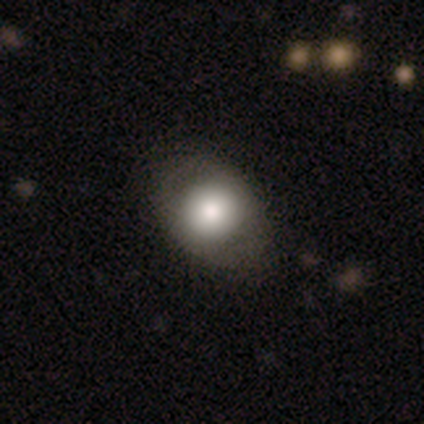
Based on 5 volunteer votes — Q: Smooth or featured?
A: smooth (60%); runner-up: featured or disk (40%)
Q: How rounded?
A: round (67%); runner-up: in between (33%)
Q: Merging?
A: none (80%); runner-up: major disturbance (20%)